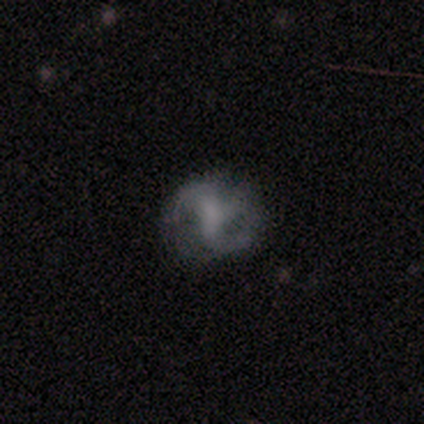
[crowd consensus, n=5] This appears to be a featured or disk galaxy (80%) with no bar (100%), 2 (50%) medium (50%, tied with loose) spiral arms (100%) and no central bulge (75%). Merging: none (75%).